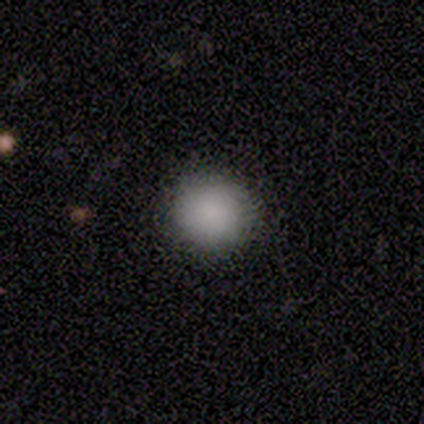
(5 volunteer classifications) This appears to be a smooth galaxy with no disk features (100%) that is round (80%). Merging: none (100%).